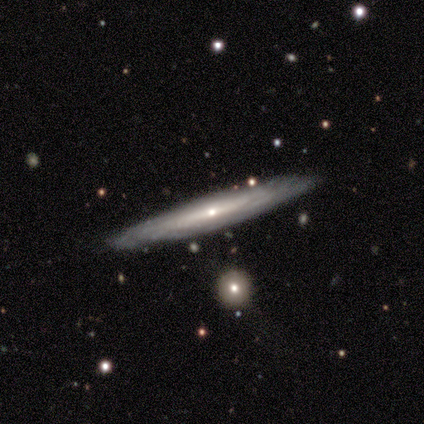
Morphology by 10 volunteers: type=featured or disk (100%); edge-on=yes (90%); edge-on bulge=rounded (67%); merging=none (80%).